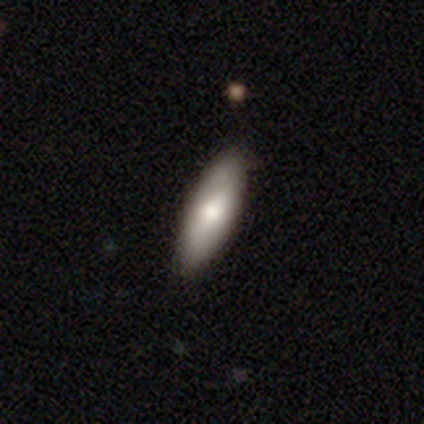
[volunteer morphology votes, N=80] type=smooth (75%); roundness=in between (57%); merging=none (49%).